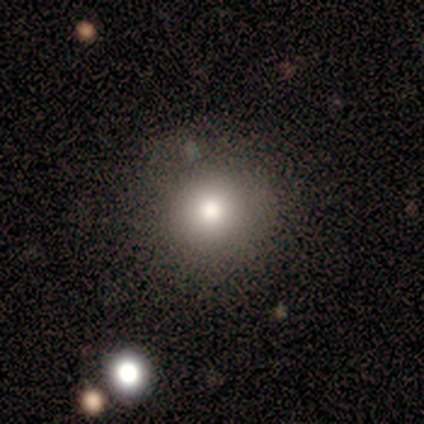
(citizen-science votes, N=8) Overall: smooth (75%). How rounded: round (83%). Merging: none (88%).